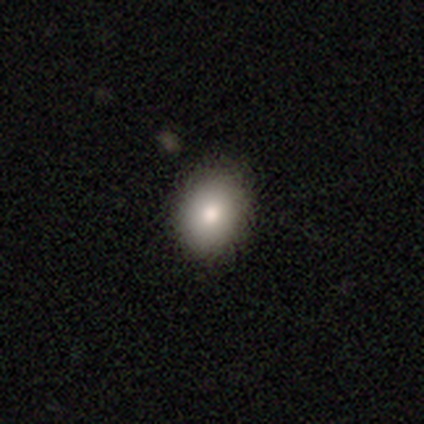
smooth 80%, featured or disk 20%, star or artifact 0%. Down the decision tree: how rounded — round (50%, tied with in between); merging — none (80%).